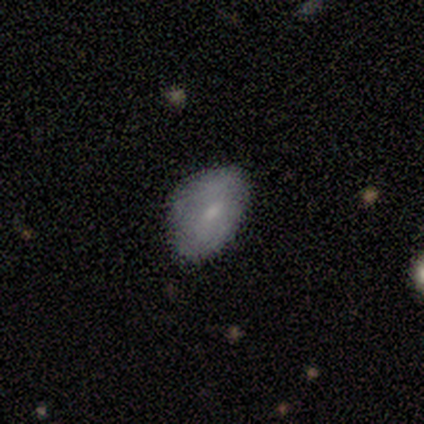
This is clearly a smooth galaxy (86%). How rounded: clearly in between (100%). Merging: likely none (71%).